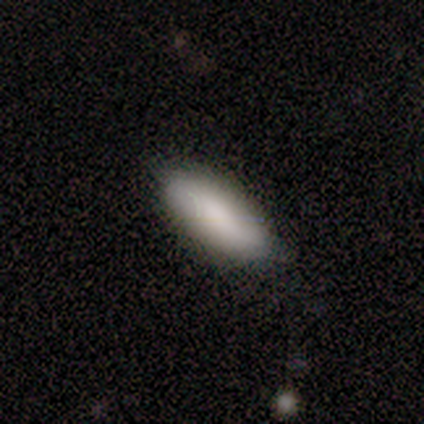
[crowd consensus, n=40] smooth_or_featured: smooth (p=0.88) [alt: featured or disk p=0.12]
how_rounded: in between (p=0.83) [alt: cigar-shaped p=0.14]
merging: none (p=0.80) [alt: minor disturbance p=0.15]